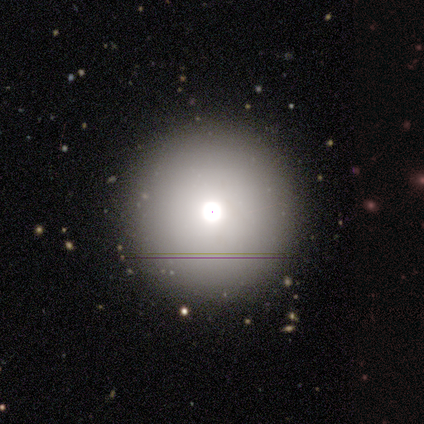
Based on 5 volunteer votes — smooth 80%, star or artifact 20%, featured or disk 0%. Down the decision tree: how rounded — round (100%); merging — none (100%).